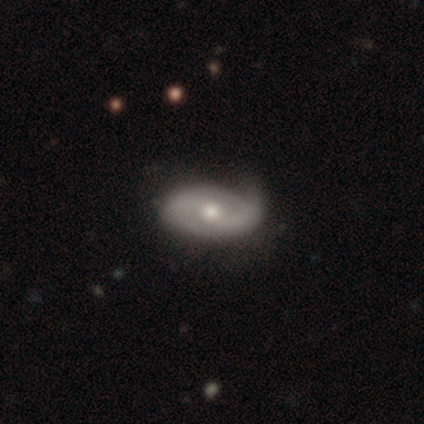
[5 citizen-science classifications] A featured or disk galaxy (80%) with no bar (75%), 2 (100%) medium (50%) spiral arms (100%) and a moderate central bulge (50%, tied with small). Merging: none (60%).